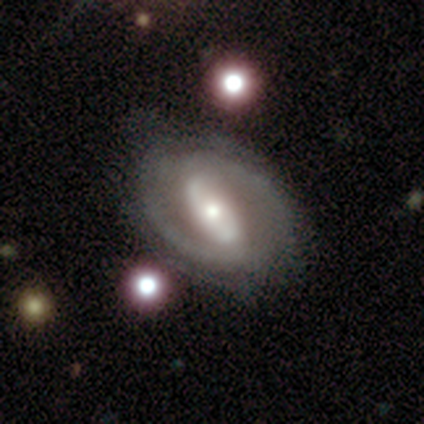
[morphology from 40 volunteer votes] This is clearly a featured or disk galaxy (80%). It is clearly not viewed edge-on (97%). Bar: likely strong (65%). Spiral arm pattern: likely yes (77%). Spiral arm count: likely 2 (79%). Spiral winding: possibly medium (54%). Central bulge: possibly moderate (55%). Merging: clearly none (86%).